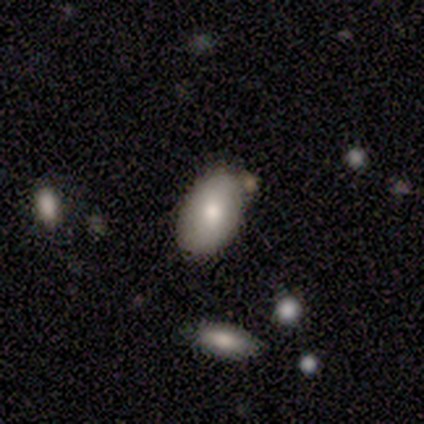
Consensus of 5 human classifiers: Volunteers were most divided on "how rounded": in between: 75%, round: 25%, cigar-shaped: 0%. More confident: smooth or featured — smooth (80%); merging — none (75%).